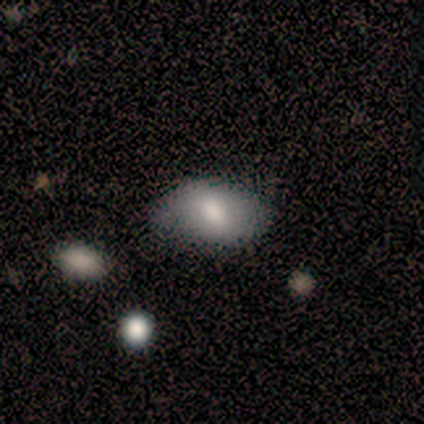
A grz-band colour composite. It shows a smooth galaxy with no disk features (88%) that is in between round and cigar-shaped (86%). Merging: none (62%).